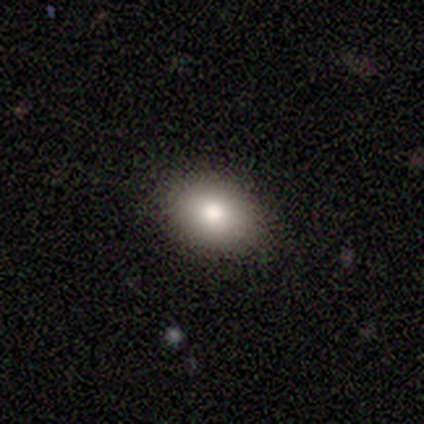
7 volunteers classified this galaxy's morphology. This appears to be a smooth galaxy with no disk features (100%) that is in between round and cigar-shaped (86%). Merging: none (86%).